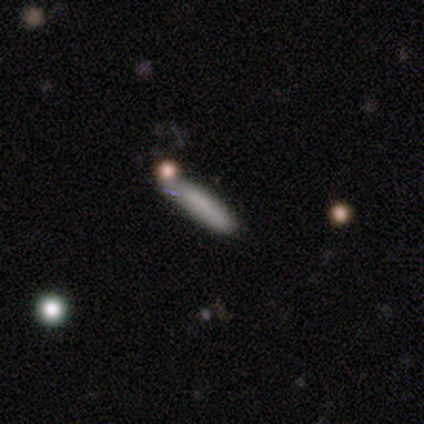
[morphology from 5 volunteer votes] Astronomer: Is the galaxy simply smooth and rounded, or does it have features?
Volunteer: smooth — 60%.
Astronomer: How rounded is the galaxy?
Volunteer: cigar-shaped — 100%.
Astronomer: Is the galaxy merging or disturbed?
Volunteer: none — 75%.